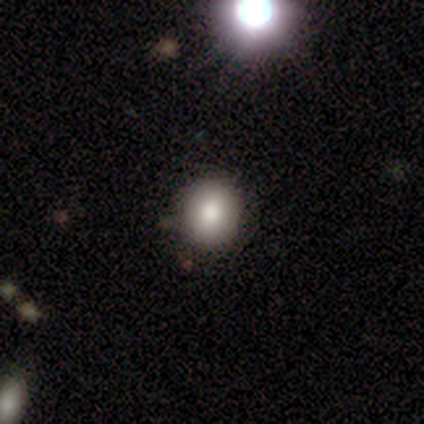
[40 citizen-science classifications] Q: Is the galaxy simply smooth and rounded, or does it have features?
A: smooth — 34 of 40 (85%).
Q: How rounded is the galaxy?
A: round — 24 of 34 (71%).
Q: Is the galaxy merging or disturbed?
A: none — 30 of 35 (86%).